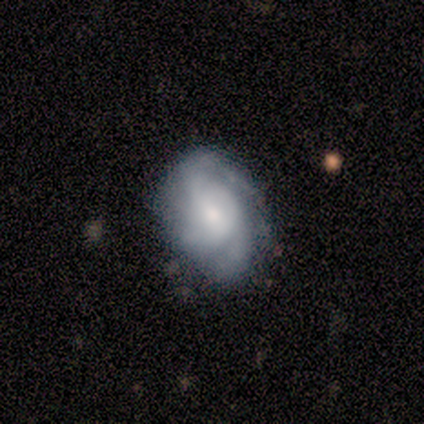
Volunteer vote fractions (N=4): Overall: smooth (50%, tied with featured or disk). How rounded: in between (100%). Merging: none (75%).